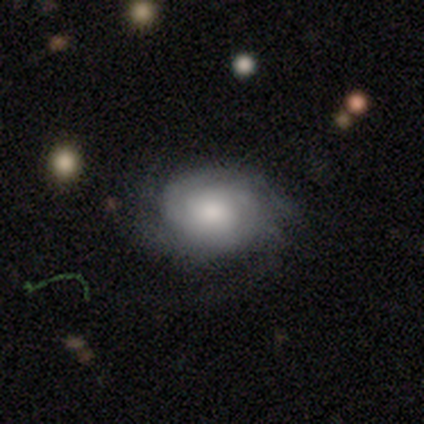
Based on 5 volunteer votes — Smooth or featured?
  - featured or disk: 60% *
  - smooth: 40%
  - star or artifact: 0%
Edge-on disk?
  - no: 100% *
  - yes: 0%
Bar?
  - no: 100% *
  - strong: 0%
  - weak: 0%
Spiral arms?
  - yes: 100% *
  - no: 0%
Spiral winding?
  - tight: 100% *
  - medium: 0%
  - loose: 0%
Spiral arm count?
  - can't tell: 67% *
  - 3: 33%
  - 1: 0%
  - 2: 0%
  - 4: 0%
  - more than 4: 0%
Bulge size?
  - dominant: 33% * (tied)
  - large: 33% * (tied)
  - small: 33% * (tied)
  - moderate: 0%
  - none: 0%
Merging?
  - none: 80% *
  - major disturbance: 20%
  - minor disturbance: 0%
  - merger: 0%